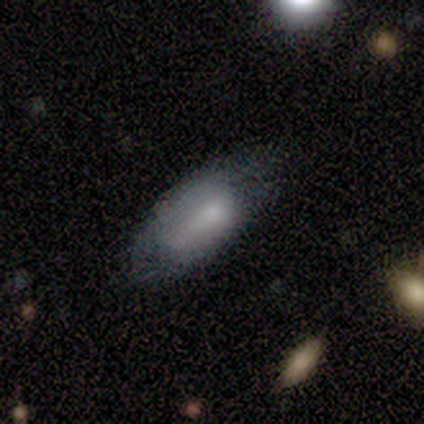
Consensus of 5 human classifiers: smooth 80%, featured or disk 20%, star or artifact 0%. Down the decision tree: how rounded — in between (100%); merging — none (60%).